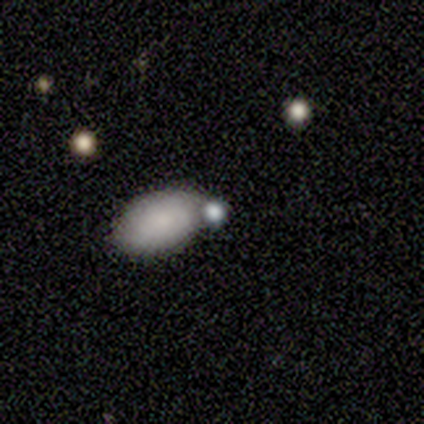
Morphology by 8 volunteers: Overall: smooth (62%; featured or disk 25%). How rounded: in between (100%). Merging: none (57%; merger 29%).